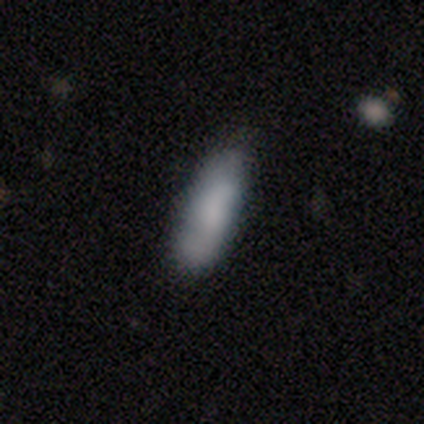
Overall: smooth (85%). How rounded: in between (64%; cigar-shaped 36%). Merging: none (73%).